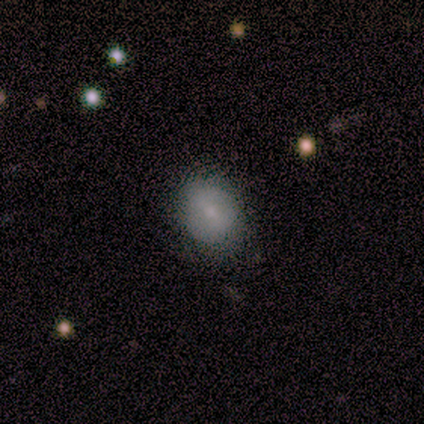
This is clearly a smooth galaxy (80%). How rounded: possibly round (50%, tied with in between). Merging: clearly none (80%).